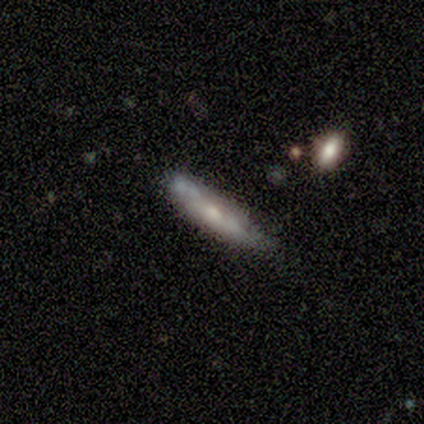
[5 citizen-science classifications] Morphology: type=featured or disk (60%); edge-on=yes (67%); edge-on bulge=none (50%, tied with rounded); merging=minor disturbance (80%).